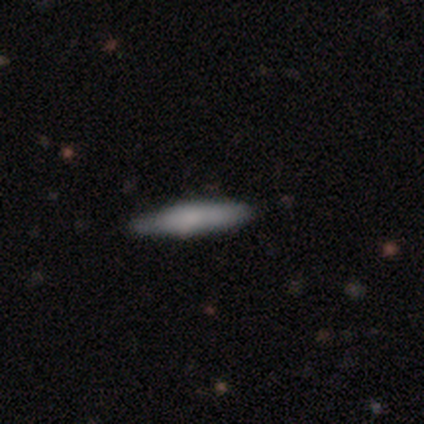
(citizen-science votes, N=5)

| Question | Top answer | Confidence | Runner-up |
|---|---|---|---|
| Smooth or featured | smooth | 80% | featured or disk (20%) |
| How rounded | cigar-shaped | 100% | — |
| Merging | none | 100% | — |